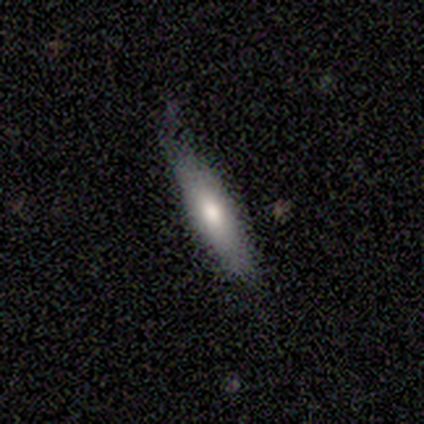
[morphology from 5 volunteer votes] Overall: smooth (60%; featured or disk 40%). How rounded: cigar-shaped (100%). Merging: none (80%).